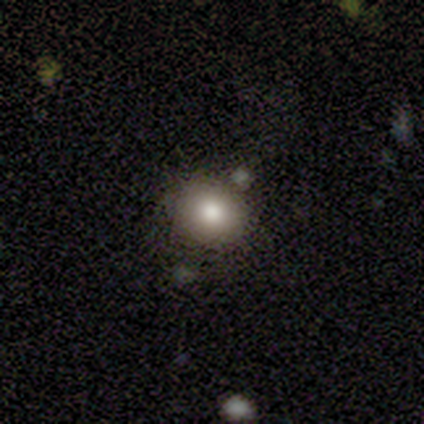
Smooth or featured: smooth — 100%
How rounded: round — 60% (in between — 40%)
Merging: none — 100%